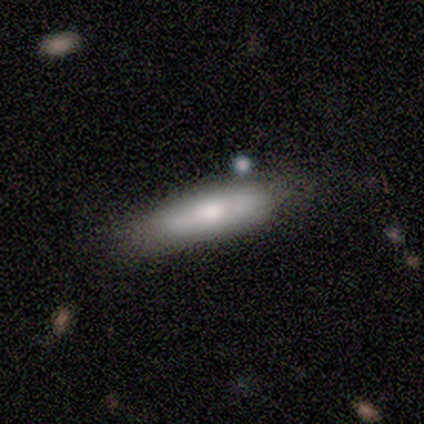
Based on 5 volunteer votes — Smooth or featured? 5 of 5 (100%) said smooth. How rounded? 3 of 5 (60%) said cigar-shaped. Merging? 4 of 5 (80%) said none.